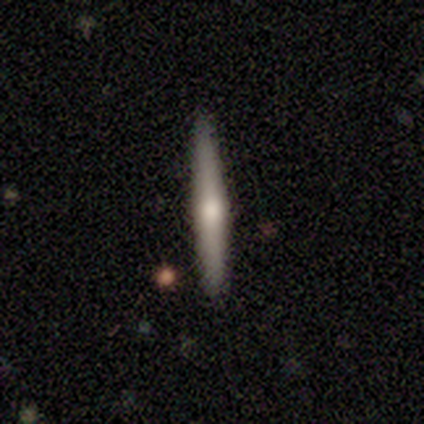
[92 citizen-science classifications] smooth_or_featured: featured or disk (p=0.57) [alt: smooth p=0.37]
disk_edge_on: yes (p=1.00)
edge_on_bulge: rounded (p=0.81) [alt: none p=0.12]
merging: none (p=0.90) [alt: minor disturbance p=0.08]